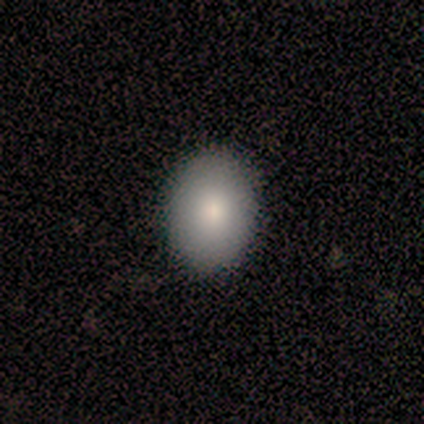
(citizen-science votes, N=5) Smooth or featured: smooth — 100%
How rounded: in between — 100%
Merging: none — 100%